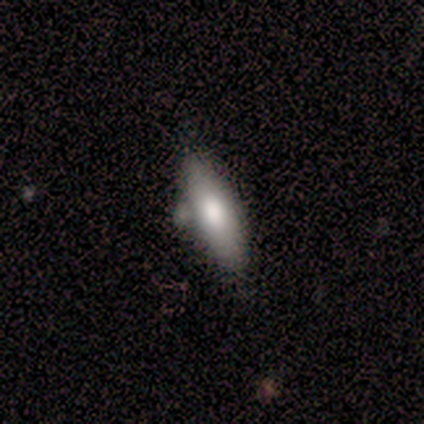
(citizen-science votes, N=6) Q: Smooth or featured?
A: smooth (83%); runner-up: featured or disk (17%)
Q: How rounded?
A: cigar-shaped (80%); runner-up: in between (20%)
Q: Merging?
A: none (67%); runner-up: minor disturbance (17%)